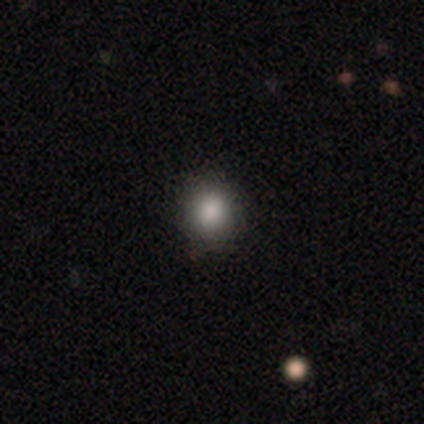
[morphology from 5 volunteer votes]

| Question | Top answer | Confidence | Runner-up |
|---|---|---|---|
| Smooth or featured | smooth | 100% | — |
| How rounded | round | 80% | in between (20%) |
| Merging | none | 100% | — |